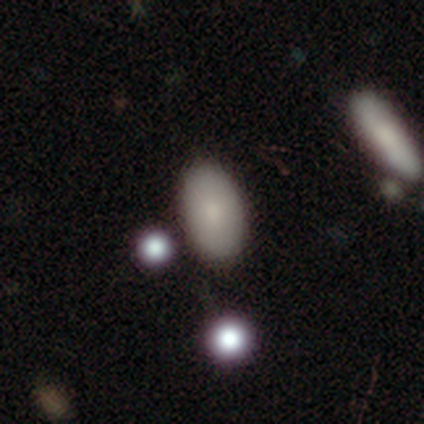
smooth-or-featured: smooth: 92% | star or artifact: 5% | featured or disk: 3%
  how-rounded: in between: 97% | round: 3% | cigar-shaped: 0%
  merging: none: 86% | minor disturbance: 6% | major disturbance: 6% | merger: 3%